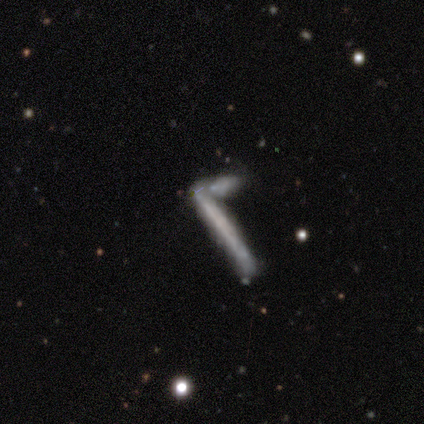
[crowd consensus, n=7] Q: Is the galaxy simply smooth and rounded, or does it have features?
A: featured or disk — 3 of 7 (43%).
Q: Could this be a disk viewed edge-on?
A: yes — 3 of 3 (100%).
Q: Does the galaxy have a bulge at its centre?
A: none — 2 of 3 (67%).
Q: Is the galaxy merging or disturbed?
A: none — 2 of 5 (40%, tied with merger).